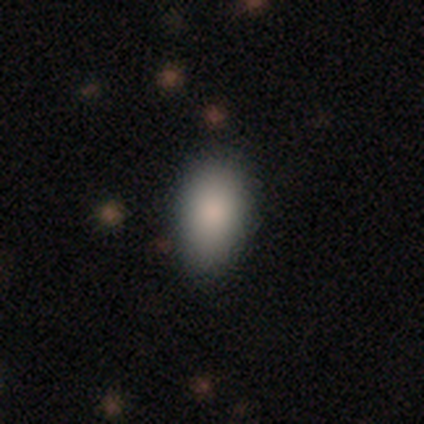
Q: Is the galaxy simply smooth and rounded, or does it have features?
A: smooth — 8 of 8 (100%).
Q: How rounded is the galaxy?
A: in between — 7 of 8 (88%).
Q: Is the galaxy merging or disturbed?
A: none — 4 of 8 (50%, tied with minor disturbance).